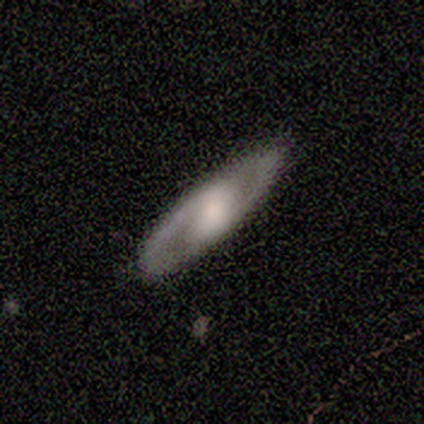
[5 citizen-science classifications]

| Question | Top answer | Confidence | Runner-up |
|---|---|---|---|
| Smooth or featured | featured or disk | 80% | smooth (20%) |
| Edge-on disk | yes | 50% | tied: no (50%) |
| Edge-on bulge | rounded | 100% | — |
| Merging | none | 100% | — |